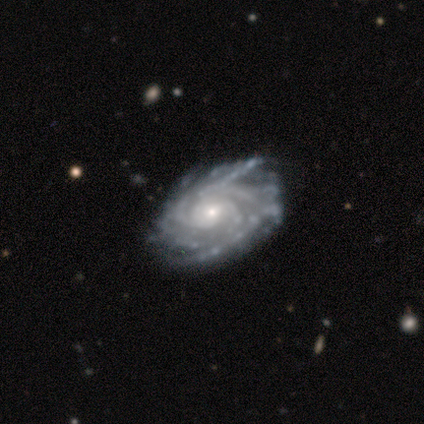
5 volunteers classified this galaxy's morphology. smooth_or_featured: featured or disk (p=0.80) [alt: star or artifact p=0.20]
disk_edge_on: no (p=1.00)
bar: no (p=1.00)
has_spiral_arms: yes (p=1.00)
spiral_winding: medium (p=0.75) [alt: tight p=0.25]
spiral_arm_count: more than 4 (p=0.50) [alt: 4 p=0.25]
bulge_size: moderate (p=0.50) [tied with: small p=0.50]
merging: none (p=0.75) [alt: major disturbance p=0.25]